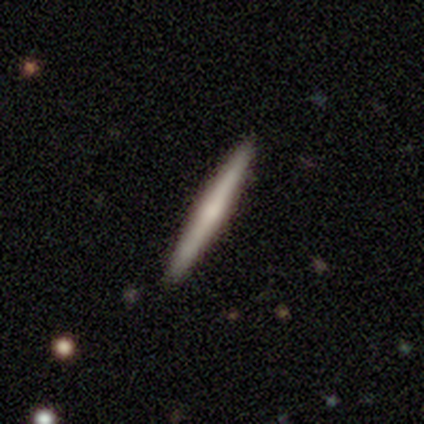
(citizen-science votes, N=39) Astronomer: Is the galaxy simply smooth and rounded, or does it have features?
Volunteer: featured or disk — 62%.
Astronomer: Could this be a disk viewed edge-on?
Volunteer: yes — 92%.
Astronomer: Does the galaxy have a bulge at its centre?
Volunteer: rounded — 64%.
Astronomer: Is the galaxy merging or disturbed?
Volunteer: none — 89%.